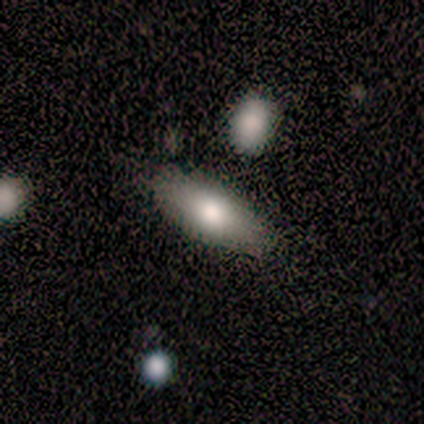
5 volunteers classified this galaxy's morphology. Q: Smooth or featured?
A: smooth (100%)
Q: How rounded?
A: in between (80%); runner-up: cigar-shaped (20%)
Q: Merging?
A: none (80%); runner-up: minor disturbance (20%)